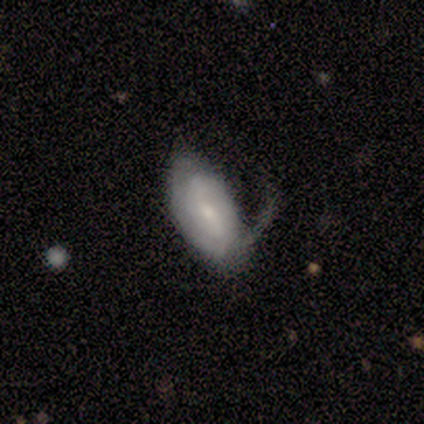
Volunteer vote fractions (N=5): This appears to be a featured or disk galaxy (60%) with no bar (67%), 1 (50%, tied with 2) tight (50%, tied with loose) spiral arms (67%) and a moderate central bulge (33%, tied with small and none). Merging: major disturbance (60%).